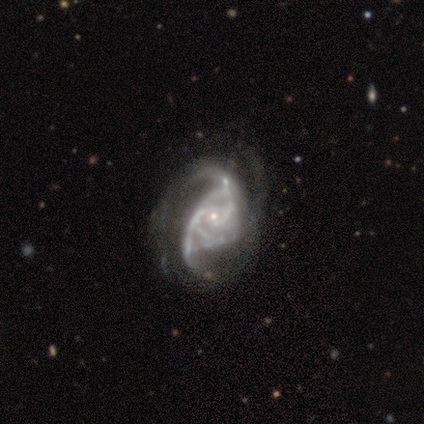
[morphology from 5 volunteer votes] smooth-or-featured: featured or disk: 100% | smooth: 0% | star or artifact: 0%
  disk-edge-on: no: 100% | yes: 0%
    bar: no: 80% | strong: 20% | weak: 0%
    has-spiral-arms: yes: 100% | no: 0%
      spiral-winding: medium: 60% | loose: 40% | tight: 0%
      spiral-arm-count: 2: 40% | 3: 20% | more than 4: 20% | can't tell: 20% | 1: 0% | 4: 0%
    bulge-size: small: 80% | none: 20% | dominant: 0% | large: 0% | moderate: 0%
  merging: none: 60% | major disturbance: 40% | minor disturbance: 0% | merger: 0%